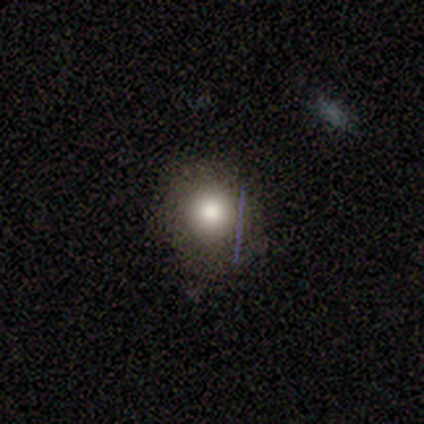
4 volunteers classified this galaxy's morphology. This appears to be a smooth galaxy with no disk features (100%) that is round (100%). Merging: none (100%).